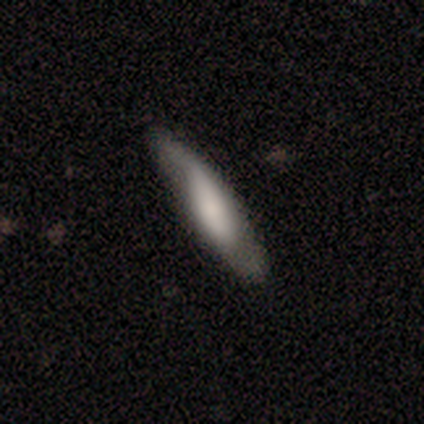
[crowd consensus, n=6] Smooth or featured?
  - smooth: 67% *
  - featured or disk: 33%
  - star or artifact: 0%
How rounded?
  - cigar-shaped: 100% *
  - round: 0%
  - in between: 0%
Merging?
  - none: 50% *
  - major disturbance: 33%
  - minor disturbance: 17%
  - merger: 0%